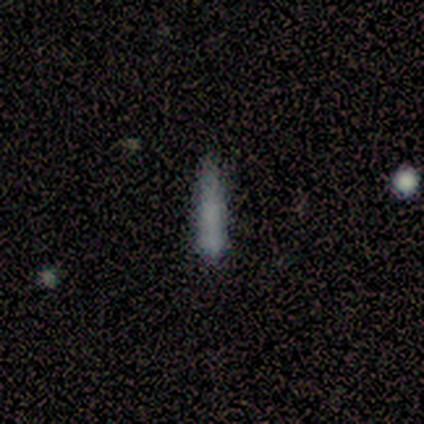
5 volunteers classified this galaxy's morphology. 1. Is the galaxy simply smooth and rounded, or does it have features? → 60% smooth, 40% featured or disk, 0% star or artifact.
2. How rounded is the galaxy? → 100% cigar-shaped, 0% round, 0% in between.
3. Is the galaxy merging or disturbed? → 60% none, 20% minor disturbance, 20% major disturbance, 0% merger.